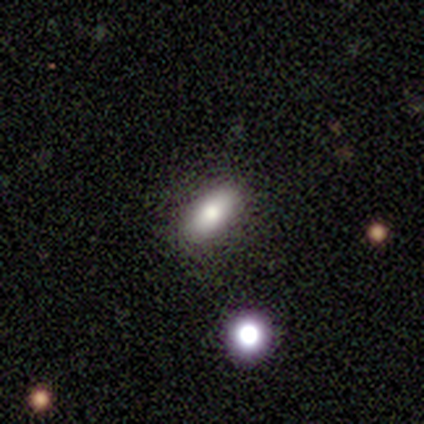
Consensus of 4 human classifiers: A smooth galaxy with no disk features (75%) that is in between round and cigar-shaped (100%). Merging: none (100%).